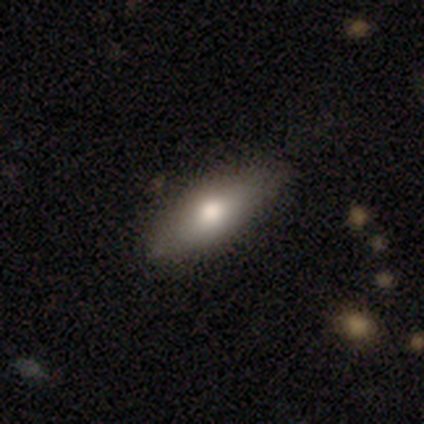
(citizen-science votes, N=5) A smooth galaxy with no disk features (80%) that is in between round and cigar-shaped (75%). Merging: none (80%).